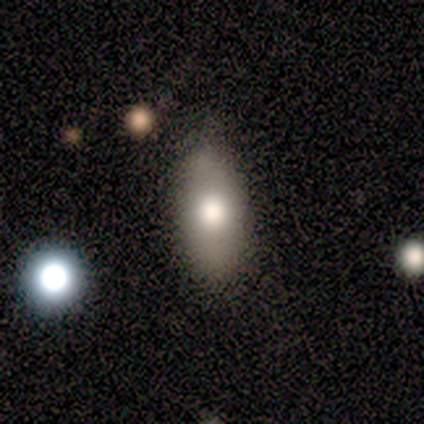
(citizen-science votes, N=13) Smooth or featured? smooth (77%)
How rounded? in between (60%)
Merging? none (69%)